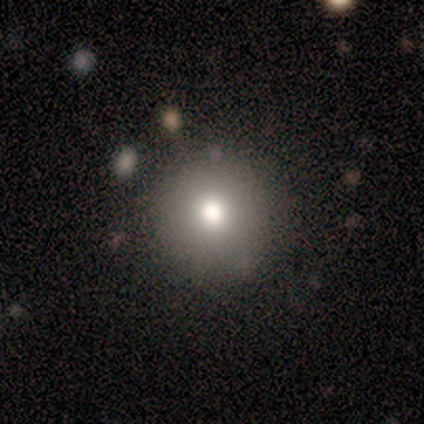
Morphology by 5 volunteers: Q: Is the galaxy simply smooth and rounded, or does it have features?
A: smooth — 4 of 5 (80%).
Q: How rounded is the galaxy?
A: round — 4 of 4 (100%).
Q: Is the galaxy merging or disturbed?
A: none — 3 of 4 (75%).